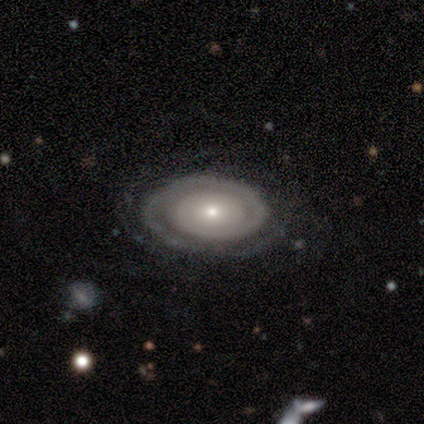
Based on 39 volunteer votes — A featured or disk galaxy (82%) with no bar (79%), 1 (62%) tight (77%) spiral arms (90%) and a small central bulge (52%). Merging: none (83%).